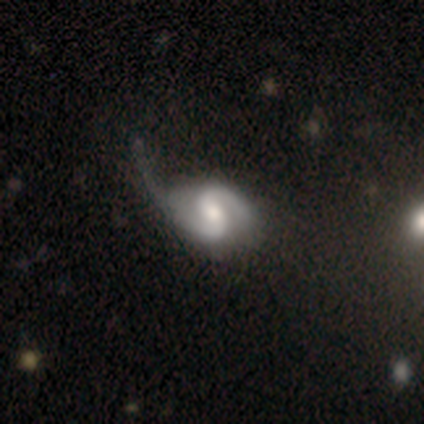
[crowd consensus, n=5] Smooth or featured?
  - featured or disk: 100% *
  - smooth: 0%
  - star or artifact: 0%
Edge-on disk?
  - no: 100% *
  - yes: 0%
Bar?
  - strong: 40% * (tied)
  - no: 40% * (tied)
  - weak: 20%
Spiral arms?
  - yes: 100% *
  - no: 0%
Spiral winding?
  - medium: 60% *
  - tight: 40%
  - loose: 0%
Spiral arm count?
  - 2: 80% *
  - can't tell: 20%
  - 1: 0%
  - 3: 0%
  - 4: 0%
  - more than 4: 0%
Bulge size?
  - moderate: 80% *
  - large: 20%
  - dominant: 0%
  - small: 0%
  - none: 0%
Merging?
  - none: 40% * (tied)
  - minor disturbance: 40% * (tied)
  - major disturbance: 20%
  - merger: 0%